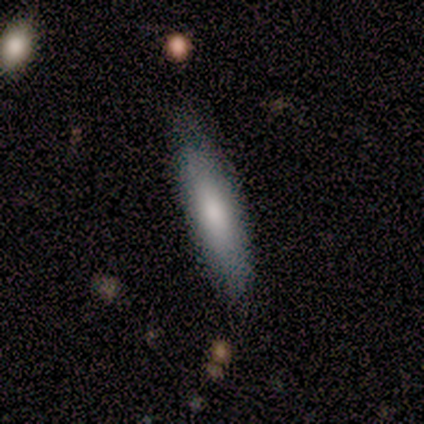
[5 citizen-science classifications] Smooth or featured? smooth (60%)
How rounded? in between (67%)
Merging? none (60%)